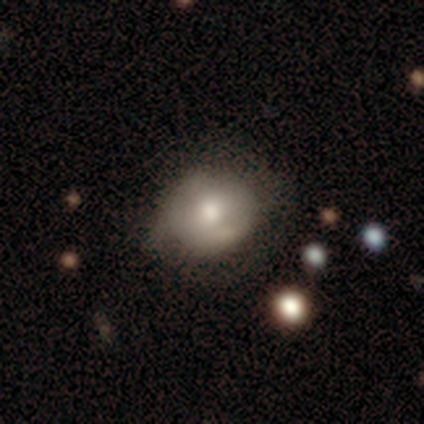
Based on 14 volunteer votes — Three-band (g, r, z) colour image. It shows a smooth galaxy with no disk features (79%) that is in between round and cigar-shaped (55%). Merging: none (69%).